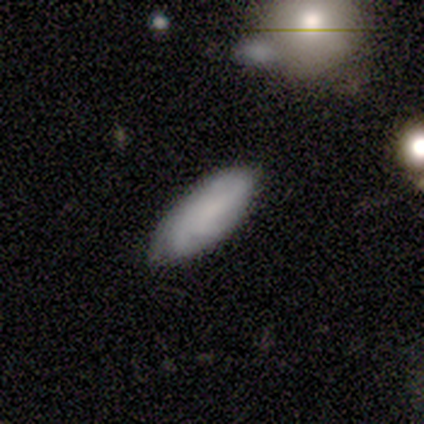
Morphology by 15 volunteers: Volunteers were most divided on "merging": none: 69%, minor disturbance: 31%, major disturbance: 0%, merger: 0%. More confident: how rounded — in between (100%); smooth or featured — smooth (67%).